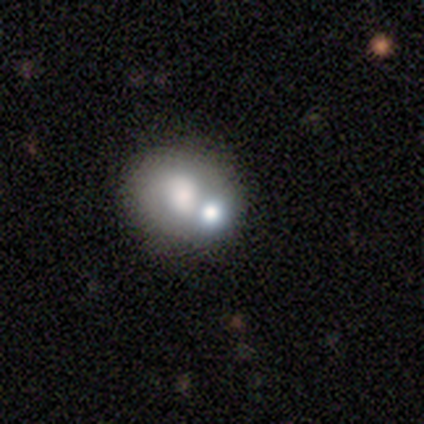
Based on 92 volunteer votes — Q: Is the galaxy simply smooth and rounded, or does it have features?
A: smooth — 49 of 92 (53%).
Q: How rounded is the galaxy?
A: round — 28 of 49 (57%).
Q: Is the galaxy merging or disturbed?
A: merger — 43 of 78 (55%).